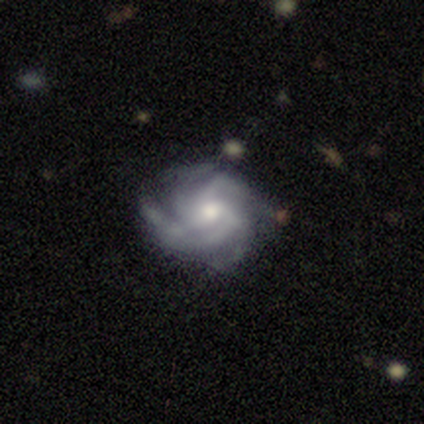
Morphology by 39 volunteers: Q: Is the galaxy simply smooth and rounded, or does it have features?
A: featured or disk — 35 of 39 (90%).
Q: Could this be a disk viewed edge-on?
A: no — 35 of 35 (100%).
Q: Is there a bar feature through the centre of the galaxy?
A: no — 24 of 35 (69%).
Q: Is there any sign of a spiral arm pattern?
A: yes — 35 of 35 (100%).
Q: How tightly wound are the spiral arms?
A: tight — 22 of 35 (63%).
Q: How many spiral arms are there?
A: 4 — 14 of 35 (40%).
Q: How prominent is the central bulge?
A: moderate — 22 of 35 (63%).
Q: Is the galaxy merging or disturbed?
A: none — 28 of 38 (74%).